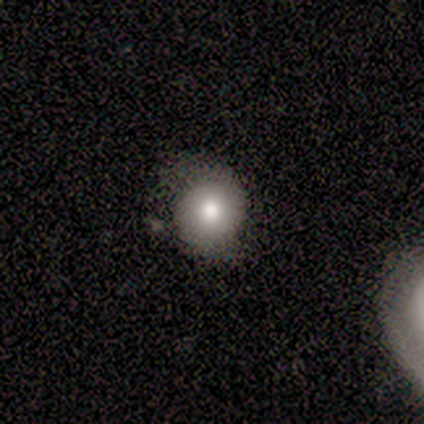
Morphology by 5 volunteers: smooth_or_featured: smooth (p=0.40) [tied with: star or artifact p=0.40]
how_rounded: round (p=1.00)
merging: none (p=0.67) [alt: minor disturbance p=0.33]